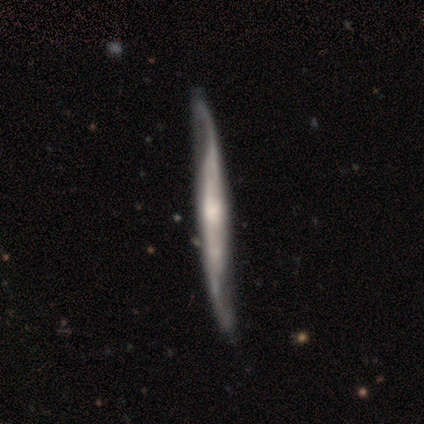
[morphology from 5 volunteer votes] featured or disk 80%, smooth 20%, star or artifact 0%. Down the decision tree: edge-on disk — yes (75%); edge-on bulge — rounded (67%); merging — minor disturbance (60%).